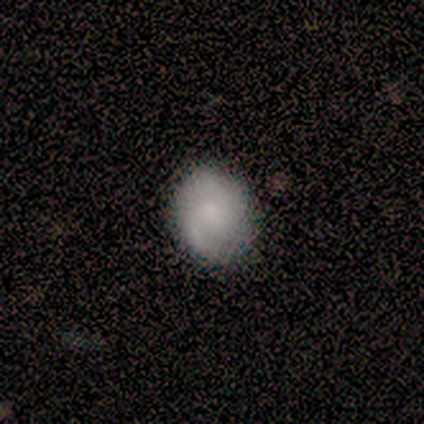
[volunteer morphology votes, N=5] Smooth or featured? smooth (100%)
How rounded? round (80%)
Merging? none (100%)